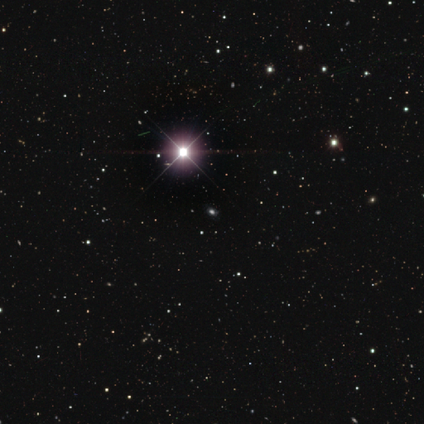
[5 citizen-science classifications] Smooth or featured? 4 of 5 (80%) said star or artifact.